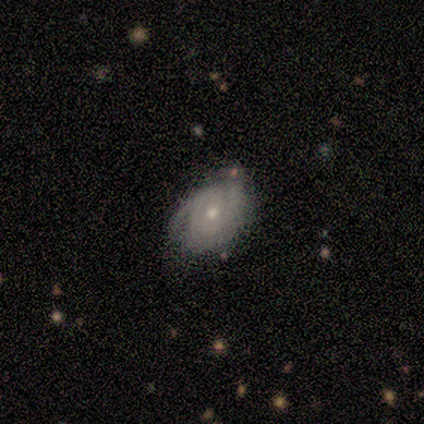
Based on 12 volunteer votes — A featured or disk galaxy (67%) with no bar (75%), 3 (43%, tied with can't tell) tight (86%) spiral arms (88%) and a moderate central bulge (50%, tied with small).

Vote fractions:
- Smooth or featured? featured or disk: 67% / smooth: 25% / star or artifact: 8%
- Edge-on disk? no: 100% / yes: 0%
- Bar? no: 75% / strong: 12% / weak: 12%
- Spiral arms? yes: 88% / no: 12%
- Spiral winding? tight: 86% / medium: 14% / loose: 0%
- Spiral arm count? 3: 43% (tied) / can't tell: 43% (tied) / 2: 14% / 1: 0% / 4: 0% / more than 4: 0%
- Bulge size? moderate: 50% (tied) / small: 50% (tied) / dominant: 0% / large: 0% / none: 0%
- Merging? none: 64% / minor disturbance: 36% / major disturbance: 0% / merger: 0%